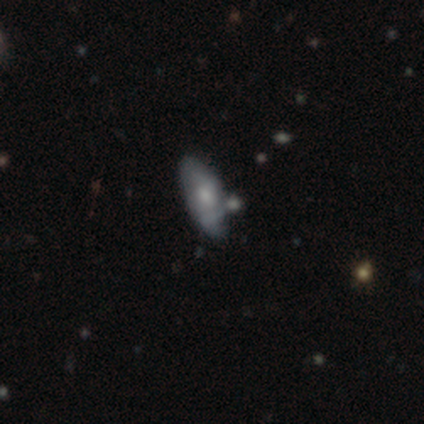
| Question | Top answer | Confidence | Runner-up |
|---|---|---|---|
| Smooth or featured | smooth | 80% | featured or disk (20%) |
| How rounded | in between | 75% | cigar-shaped (25%) |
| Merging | minor disturbance | 60% | none (20%) |